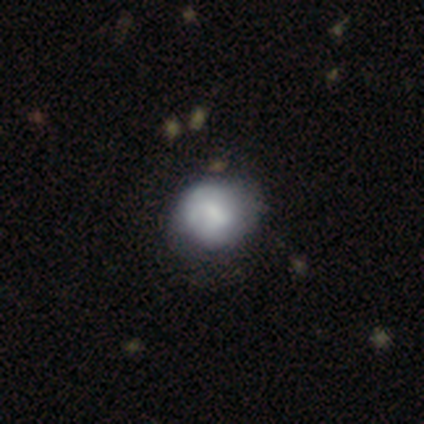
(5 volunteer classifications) This is clearly a featured or disk galaxy (80%). It is clearly not viewed edge-on (100%). Bar: possibly no (50%). Spiral arm pattern: likely no (75%). Central bulge: clearly moderate (100%). Merging: likely minor disturbance (60%).